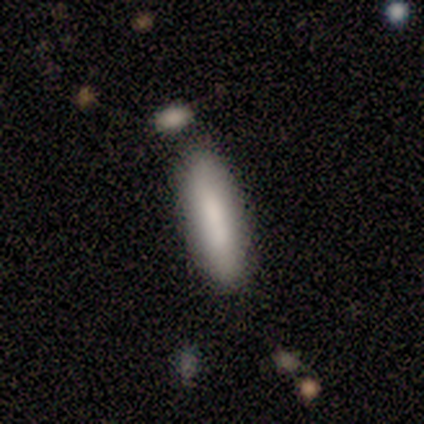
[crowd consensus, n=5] Volunteers were most divided on "smooth or featured": smooth: 60%, featured or disk: 40%, star or artifact: 0%. More confident: how rounded — cigar-shaped (100%); merging — none (80%).